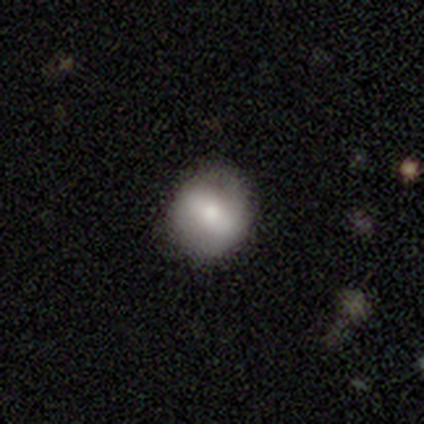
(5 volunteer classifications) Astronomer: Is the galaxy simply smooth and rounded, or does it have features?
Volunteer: featured or disk — 60% (runner-up: smooth, 40%).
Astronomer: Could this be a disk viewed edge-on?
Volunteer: no — 100%.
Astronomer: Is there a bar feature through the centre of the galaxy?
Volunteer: no — 67%.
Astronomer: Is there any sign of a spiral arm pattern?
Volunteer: no — 100%.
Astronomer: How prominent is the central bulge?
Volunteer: moderate — 67%.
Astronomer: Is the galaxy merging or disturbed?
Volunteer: none — 80%.